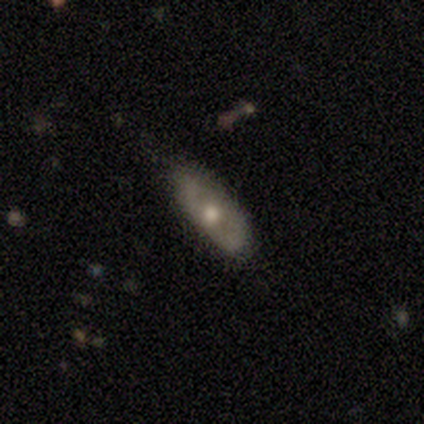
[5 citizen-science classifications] This is clearly a smooth galaxy (80%). How rounded: likely in between (75%). Merging: likely none (60%).